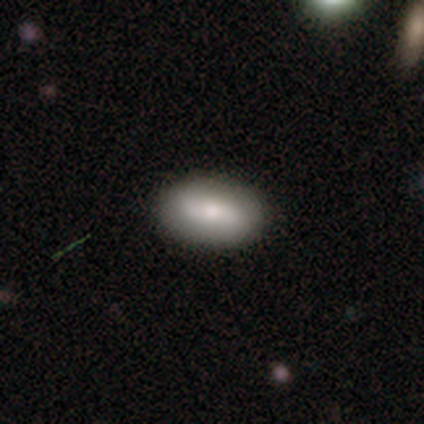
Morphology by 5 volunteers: A smooth galaxy with no disk features (80%) that is in between round and cigar-shaped (100%).

Vote fractions:
- Smooth or featured? smooth: 80% / featured or disk: 20% / star or artifact: 0%
- How rounded? in between: 100% / round: 0% / cigar-shaped: 0%
- Merging? none: 100% / minor disturbance: 0% / major disturbance: 0% / merger: 0%